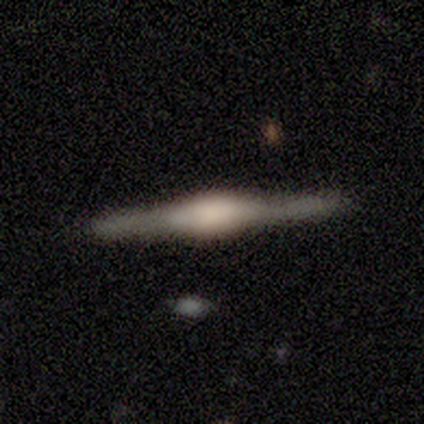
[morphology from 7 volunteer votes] type=featured or disk (100%); edge-on=yes (100%); edge-on bulge=rounded (71%); merging=none (86%).